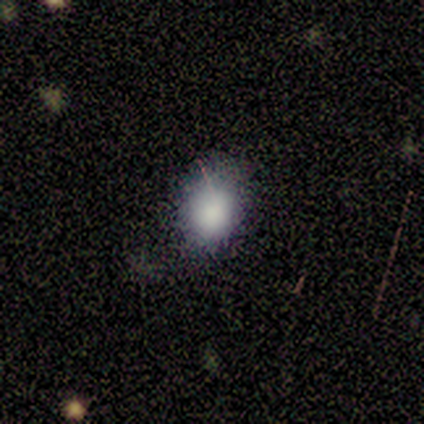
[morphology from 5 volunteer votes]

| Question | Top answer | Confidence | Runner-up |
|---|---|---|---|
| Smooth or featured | smooth | 100% | — |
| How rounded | in between | 60% | round (40%) |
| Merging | none | 60% | minor disturbance (40%) |